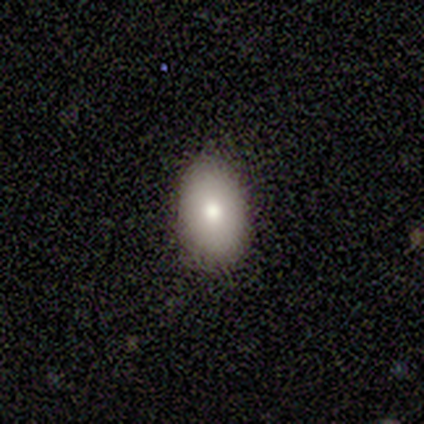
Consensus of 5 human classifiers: Morphology: type=smooth (100%); roundness=in between (80%); merging=none (80%).